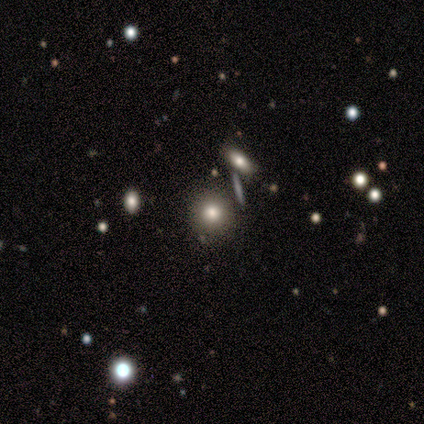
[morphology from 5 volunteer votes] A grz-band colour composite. It shows a featured or disk galaxy (60%) with no bar (100%), no spiral arms (100%) and a dominant central bulge (33%, tied with large and small). Merging: none (100%).